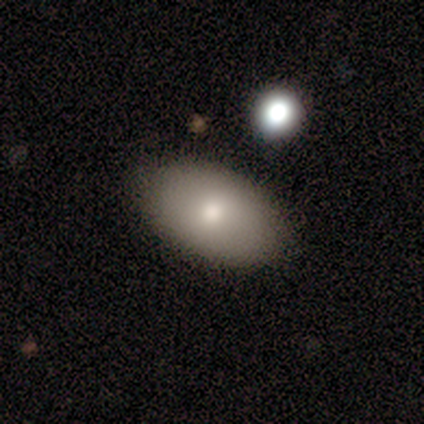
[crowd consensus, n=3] Smooth or featured: smooth — 100%
How rounded: in between — 100%
Merging: none — 100%